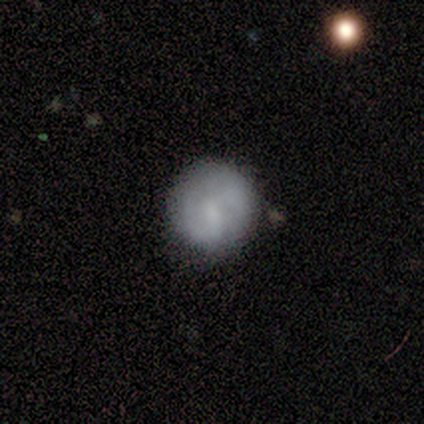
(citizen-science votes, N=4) A smooth galaxy with no disk features (75%) that is round (100%).

Vote fractions:
- Smooth or featured? smooth: 75% / star or artifact: 25% / featured or disk: 0%
- How rounded? round: 100% / in between: 0% / cigar-shaped: 0%
- Merging? minor disturbance: 67% / none: 33% / major disturbance: 0% / merger: 0%